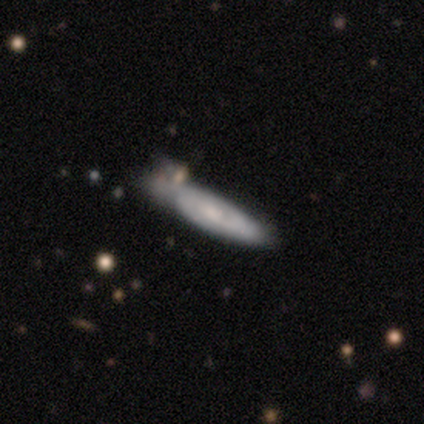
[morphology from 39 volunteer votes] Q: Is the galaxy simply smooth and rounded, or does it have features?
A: featured or disk — 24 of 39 (62%).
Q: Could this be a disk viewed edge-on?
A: no — 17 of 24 (71%).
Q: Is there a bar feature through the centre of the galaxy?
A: no — 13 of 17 (76%).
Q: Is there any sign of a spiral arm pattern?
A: yes — 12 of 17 (71%).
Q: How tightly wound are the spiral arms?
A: tight — 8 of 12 (67%).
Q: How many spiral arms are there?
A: can't tell — 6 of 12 (50%).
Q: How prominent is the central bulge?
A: moderate — 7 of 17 (41%).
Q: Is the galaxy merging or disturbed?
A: minor disturbance — 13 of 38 (34%).